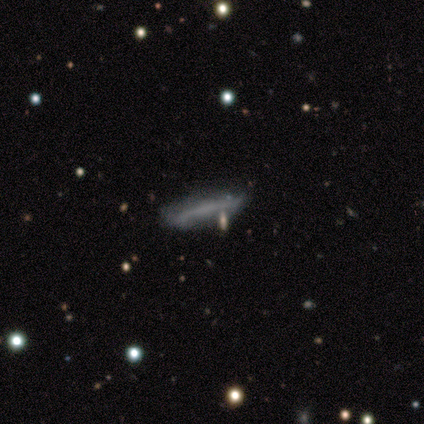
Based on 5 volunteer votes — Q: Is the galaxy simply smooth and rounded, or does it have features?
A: featured or disk — 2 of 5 (40%, tied with star or artifact).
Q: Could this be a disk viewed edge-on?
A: yes — 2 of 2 (100%).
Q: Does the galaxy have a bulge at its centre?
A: none — 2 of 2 (100%).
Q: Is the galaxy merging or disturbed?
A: minor disturbance — 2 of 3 (67%).